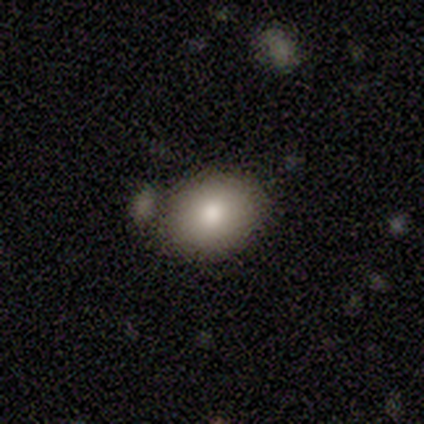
Smooth or featured? smooth (100%)
How rounded? round (50%, tied with in between)
Merging? none (100%)